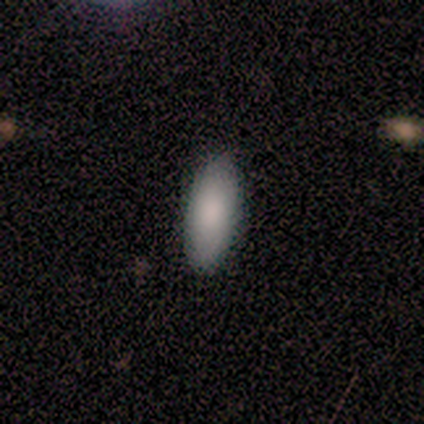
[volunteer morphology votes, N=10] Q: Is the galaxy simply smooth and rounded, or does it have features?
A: smooth — 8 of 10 (80%).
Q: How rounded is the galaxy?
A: in between — 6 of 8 (75%).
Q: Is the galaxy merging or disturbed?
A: none — 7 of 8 (88%).